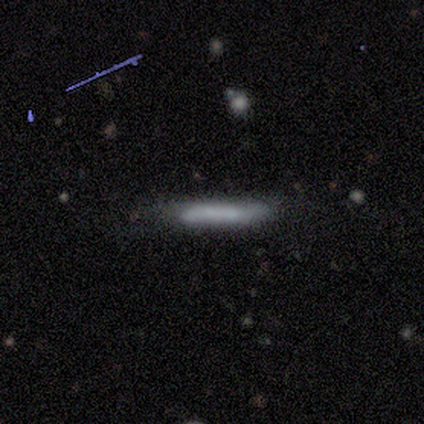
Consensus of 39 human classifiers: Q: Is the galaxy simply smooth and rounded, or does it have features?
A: smooth — 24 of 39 (62%).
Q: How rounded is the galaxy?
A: cigar-shaped — 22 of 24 (92%).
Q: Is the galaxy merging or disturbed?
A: none — 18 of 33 (55%).